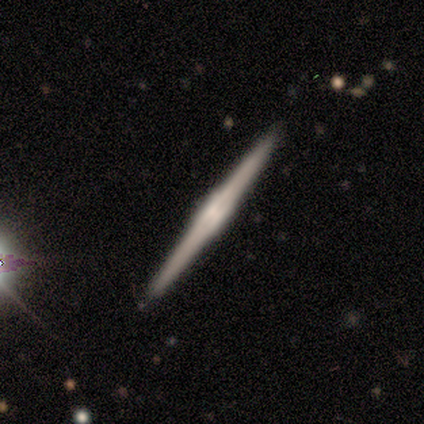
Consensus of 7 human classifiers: Morphology: type=featured or disk (100%); edge-on=yes (100%); edge-on bulge=boxy (57%); merging=none (100%).